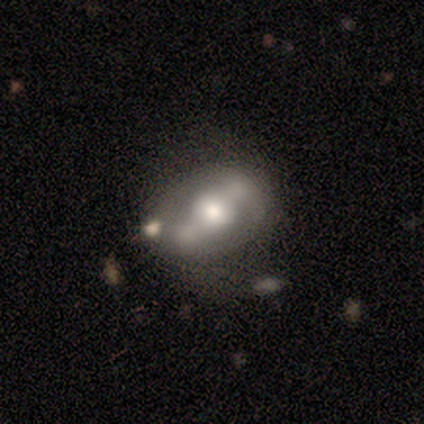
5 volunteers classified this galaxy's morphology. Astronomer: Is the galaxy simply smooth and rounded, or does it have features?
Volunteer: featured or disk — 80%.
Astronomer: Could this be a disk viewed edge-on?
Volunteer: no — 100%.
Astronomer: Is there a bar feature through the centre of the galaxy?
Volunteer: no — 75%.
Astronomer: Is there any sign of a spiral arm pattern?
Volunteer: yes — 50%, tied with no at 50%.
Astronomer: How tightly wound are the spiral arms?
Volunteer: medium — 50%, tied with loose at 50%.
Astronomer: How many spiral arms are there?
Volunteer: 2 — 50%, tied with can't tell at 50%.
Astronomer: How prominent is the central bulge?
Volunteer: moderate — 75%.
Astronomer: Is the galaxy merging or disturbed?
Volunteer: none — 40%, tied with minor disturbance at 40%.